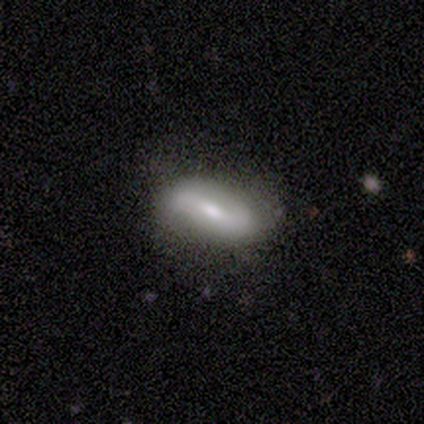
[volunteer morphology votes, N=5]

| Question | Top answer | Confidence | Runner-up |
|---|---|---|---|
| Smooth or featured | featured or disk | 60% | smooth (40%) |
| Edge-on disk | no | 100% | — |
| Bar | strong | 67% | no (33%) |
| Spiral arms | no | 100% | — |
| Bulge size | moderate | 67% | small (33%) |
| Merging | none | 60% | minor disturbance (40%) |